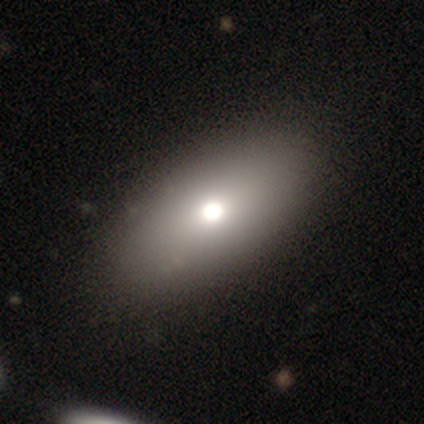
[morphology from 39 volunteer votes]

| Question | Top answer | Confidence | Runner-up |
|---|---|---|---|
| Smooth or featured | smooth | 85% | featured or disk (10%) |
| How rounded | in between | 88% | round (9%) |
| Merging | none | 78% | minor disturbance (5%) |